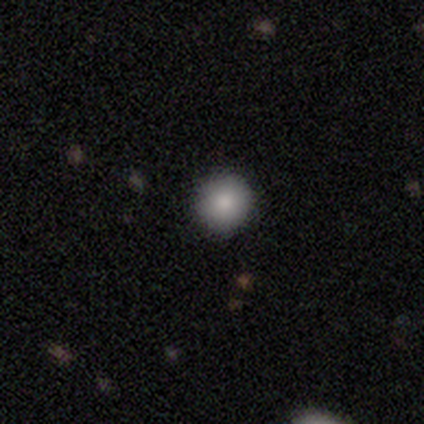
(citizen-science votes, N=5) smooth_or_featured: smooth (p=1.00)
how_rounded: round (p=0.80) [alt: in between p=0.20]
merging: none (p=1.00)